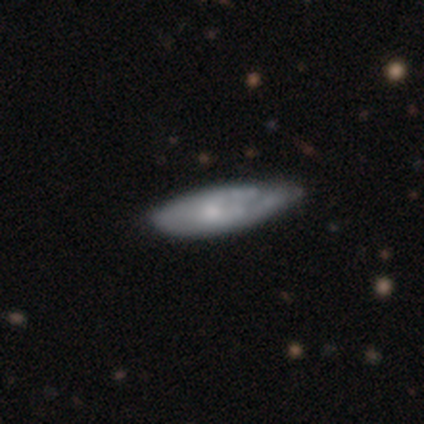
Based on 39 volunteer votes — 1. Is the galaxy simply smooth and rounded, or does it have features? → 56% featured or disk, 41% smooth, 3% star or artifact.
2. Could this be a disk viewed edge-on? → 91% no, 9% yes.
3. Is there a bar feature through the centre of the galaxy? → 90% no, 10% weak, 0% strong.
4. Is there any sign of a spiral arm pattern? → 55% no, 45% yes.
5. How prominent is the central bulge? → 45% small, 35% moderate, 15% none, 5% large, 0% dominant.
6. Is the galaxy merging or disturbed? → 29% none (tied), 29% minor disturbance (tied), 8% major disturbance, 5% merger.